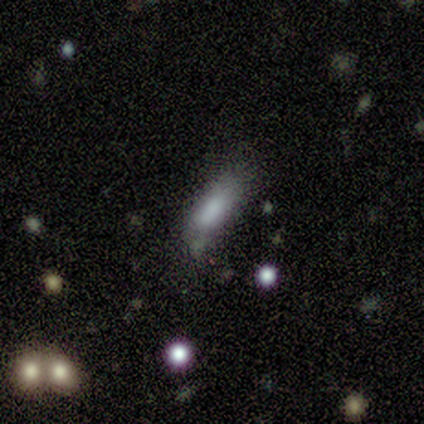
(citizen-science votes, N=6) Smooth or featured?
  - smooth: 67% *
  - featured or disk: 33%
  - star or artifact: 0%
How rounded?
  - in between: 100% *
  - round: 0%
  - cigar-shaped: 0%
Merging?
  - none: 50% *
  - minor disturbance: 33%
  - major disturbance: 17%
  - merger: 0%